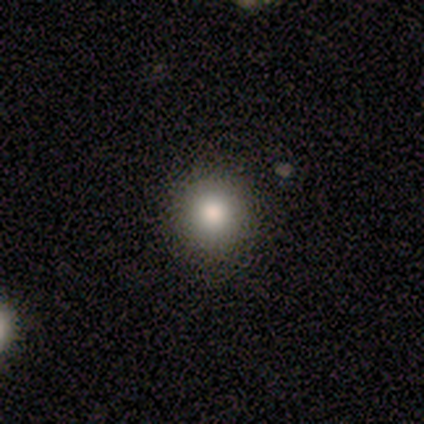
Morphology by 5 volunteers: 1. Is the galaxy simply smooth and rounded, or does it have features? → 100% smooth, 0% featured or disk, 0% star or artifact.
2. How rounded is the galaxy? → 100% round, 0% in between, 0% cigar-shaped.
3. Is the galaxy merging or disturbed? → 80% none, 20% minor disturbance, 0% major disturbance, 0% merger.